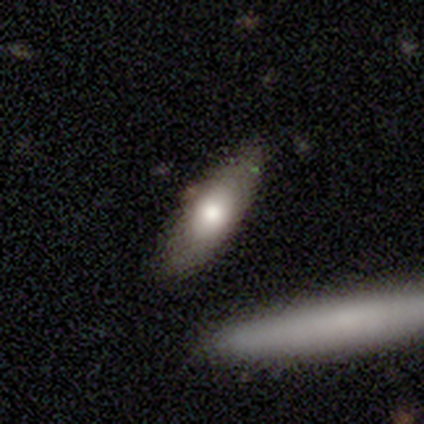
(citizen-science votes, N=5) Smooth or featured?
  - smooth: 40% * (tied)
  - star or artifact: 40% * (tied)
  - featured or disk: 20%
How rounded?
  - in between: 50% * (tied)
  - cigar-shaped: 50% * (tied)
  - round: 0%
Merging?
  - none: 67% *
  - merger: 33%
  - minor disturbance: 0%
  - major disturbance: 0%